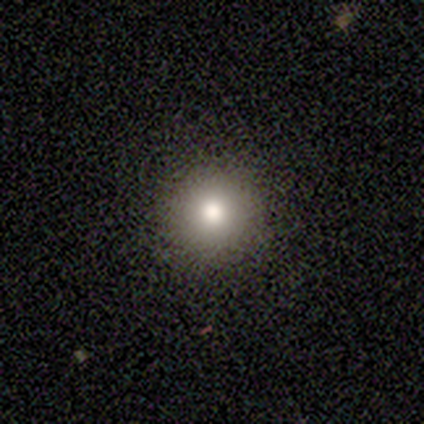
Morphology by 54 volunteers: Smooth or featured? smooth (76%)
How rounded? round (95%)
Merging? none (93%)